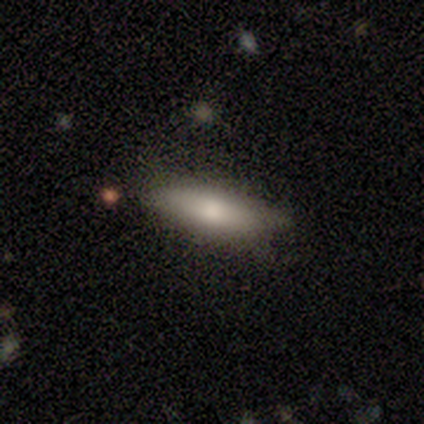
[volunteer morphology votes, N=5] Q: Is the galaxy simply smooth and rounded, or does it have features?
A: smooth — 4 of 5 (80%).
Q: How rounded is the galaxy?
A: cigar-shaped — 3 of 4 (75%).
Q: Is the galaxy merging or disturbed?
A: none — 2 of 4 (50%).